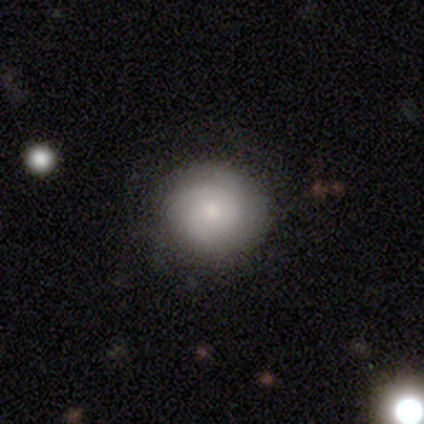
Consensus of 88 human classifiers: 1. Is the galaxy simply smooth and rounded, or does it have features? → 60% smooth, 34% featured or disk, 6% star or artifact.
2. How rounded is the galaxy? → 92% round, 6% in between, 2% cigar-shaped.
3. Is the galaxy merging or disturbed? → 80% none, 14% minor disturbance, 6% major disturbance, 0% merger.